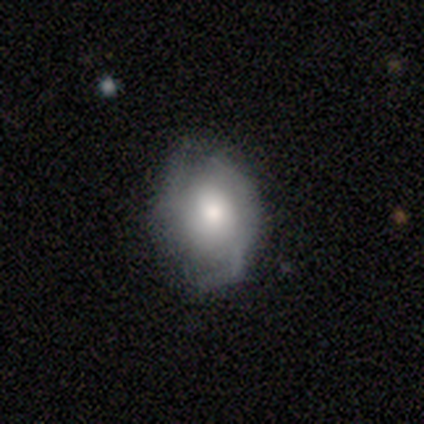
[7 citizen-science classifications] featured or disk 57%, smooth 43%, star or artifact 0%. Down the decision tree: edge-on disk — no (100%); bar — no (100%); spiral arms — yes (100%); spiral arm count — 2 (50%, tied with can't tell); spiral winding — medium (50%); bulge size — large (75%); merging — minor disturbance (43%).